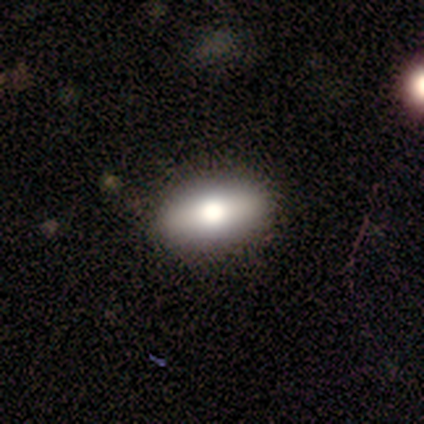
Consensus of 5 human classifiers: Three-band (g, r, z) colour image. It shows a smooth galaxy with no disk features (80%) that is in between round and cigar-shaped (100%). Merging: none (75%).